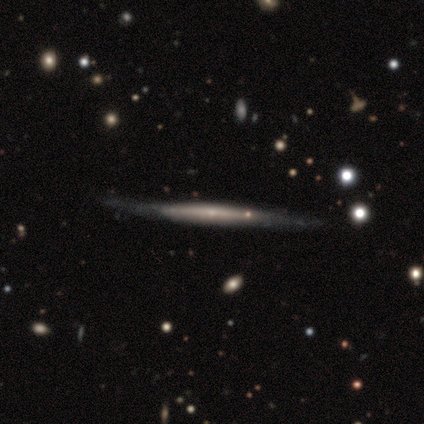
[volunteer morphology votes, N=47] Volunteers were most divided on "edge-on bulge": none: 57%, rounded: 31%, boxy: 11%. More confident: edge-on disk — yes (100%); merging — none (81%); smooth or featured — featured or disk (74%).